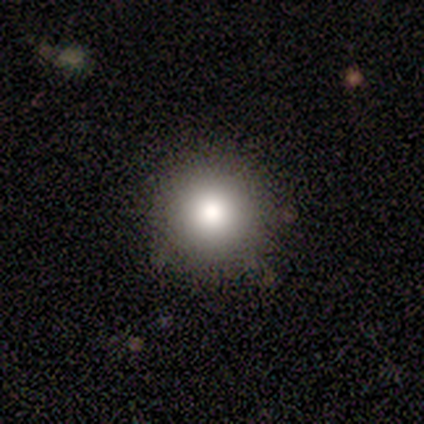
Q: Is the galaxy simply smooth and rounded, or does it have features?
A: smooth — 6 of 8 (75%).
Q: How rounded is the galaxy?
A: round — 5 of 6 (83%).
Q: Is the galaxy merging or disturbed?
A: none — 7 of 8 (88%).